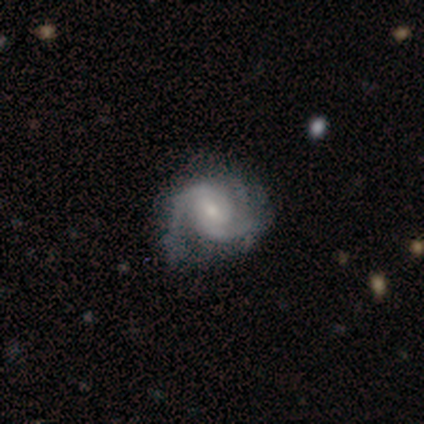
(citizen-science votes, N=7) featured or disk 86%, star or artifact 14%, smooth 0%. Down the decision tree: edge-on disk — no (100%); bar — weak (67%); spiral arms — yes (100%); spiral arm count — 2 (83%); spiral winding — tight (50%); bulge size — small (83%); merging — none (67%).